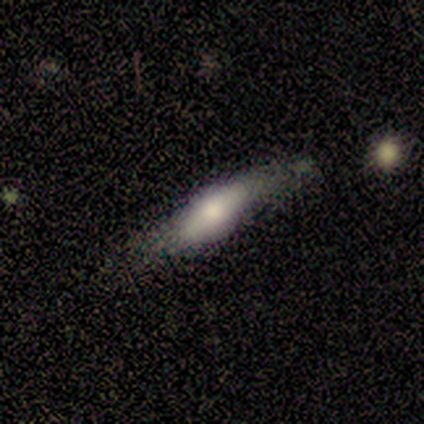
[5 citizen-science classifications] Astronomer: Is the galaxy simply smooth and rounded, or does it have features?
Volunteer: smooth — 60% (runner-up: featured or disk, 40%).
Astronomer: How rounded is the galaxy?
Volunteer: in between — 67%.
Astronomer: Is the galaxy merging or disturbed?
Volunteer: none — 60% (runner-up: minor disturbance, 40%).